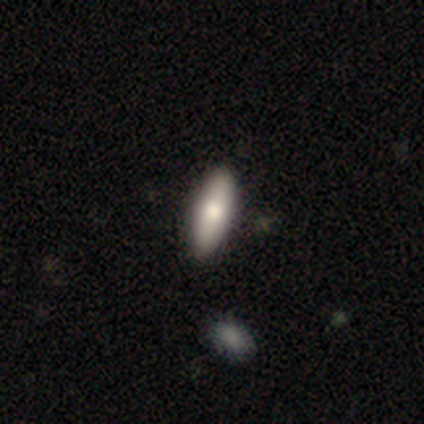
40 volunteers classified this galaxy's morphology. A smooth galaxy with no disk features (78%) that is in between round and cigar-shaped (74%). Merging: none (72%).